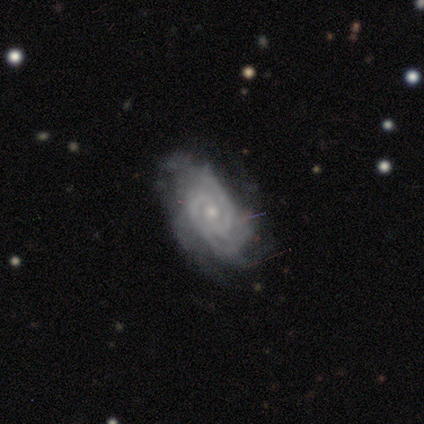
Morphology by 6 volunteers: smooth_or_featured: featured or disk (p=1.00)
disk_edge_on: no (p=0.83) [alt: yes p=0.17]
bar: no (p=0.60) [alt: strong p=0.20]
has_spiral_arms: yes (p=1.00)
spiral_winding: tight (p=0.80) [alt: loose p=0.20]
spiral_arm_count: 4 (p=0.40) [tied with: can't tell p=0.40]
bulge_size: small (p=0.80) [alt: moderate p=0.20]
merging: none (p=0.83) [alt: merger p=0.17]